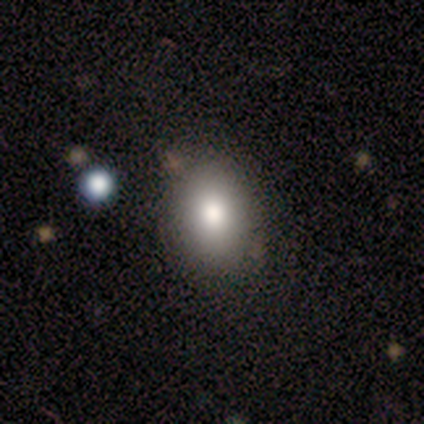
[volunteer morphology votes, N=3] smooth 33% (tied), featured or disk 33% (tied), star or artifact 33% (tied). Down the decision tree: how rounded — in between (100%); merging — none (100%).